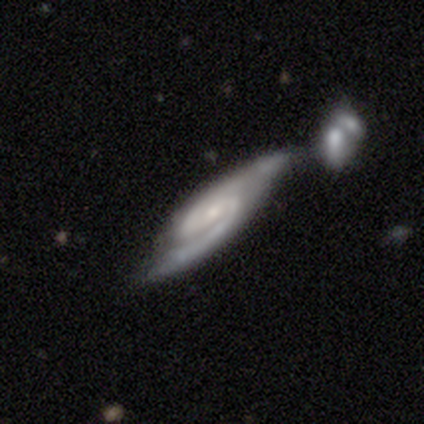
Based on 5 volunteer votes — Volunteers were most divided on "edge-on disk": no: 60%, yes: 40%. More confident: smooth or featured — featured or disk (100%); spiral arms — yes (100%); spiral arm count — 2 (100%); bar — weak (67%); spiral winding — tight (67%); bulge size — small (67%); merging — none (60%).